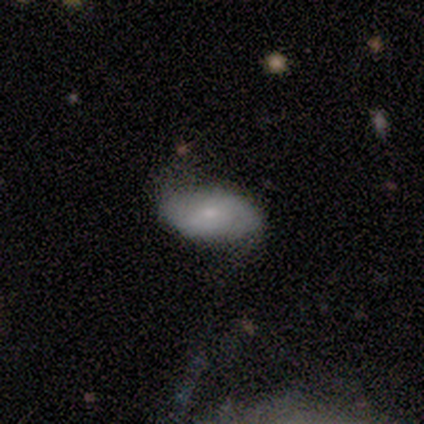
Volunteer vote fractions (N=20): A smooth galaxy with no disk features (50%) that is in between round and cigar-shaped (90%).

Vote fractions:
- Smooth or featured? smooth: 50% / featured or disk: 25% / star or artifact: 25%
- How rounded? in between: 90% / round: 10% / cigar-shaped: 0%
- Merging? none: 53% / minor disturbance: 40% / major disturbance: 7% / merger: 0%